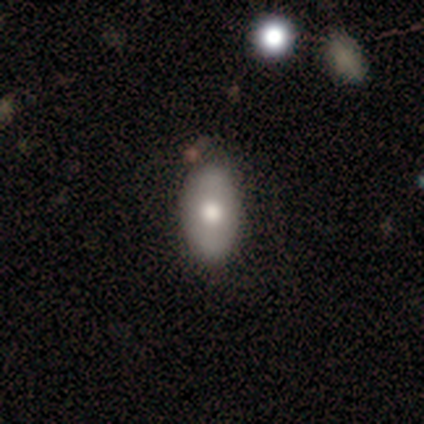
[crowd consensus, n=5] A smooth galaxy with no disk features (60%) that is in between round and cigar-shaped (100%). Merging: none (80%).